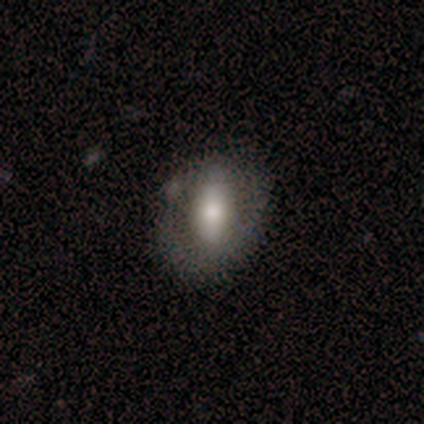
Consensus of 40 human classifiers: This appears to be a smooth galaxy with no disk features (55%) that is in between round and cigar-shaped (59%). Merging: none (61%).